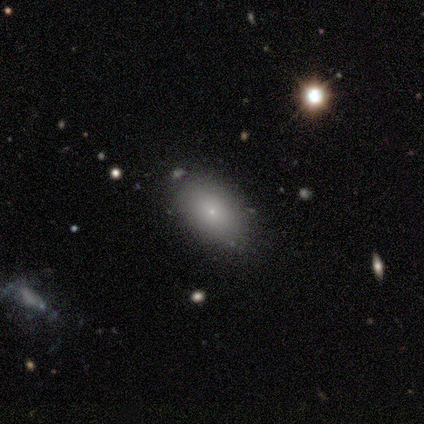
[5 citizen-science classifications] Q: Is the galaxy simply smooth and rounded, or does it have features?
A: smooth — 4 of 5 (80%).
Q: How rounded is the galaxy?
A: in between — 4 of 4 (100%).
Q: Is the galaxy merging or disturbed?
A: none — 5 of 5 (100%).